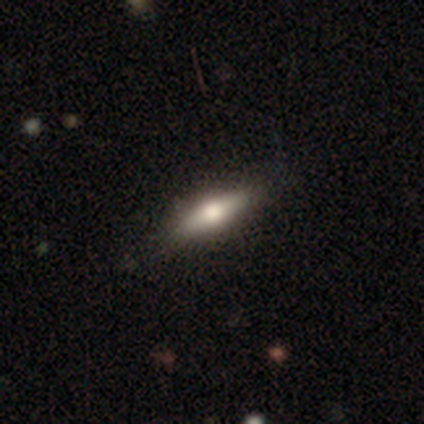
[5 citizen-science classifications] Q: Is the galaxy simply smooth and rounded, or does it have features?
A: featured or disk — 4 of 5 (80%).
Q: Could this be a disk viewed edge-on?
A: yes — 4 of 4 (100%).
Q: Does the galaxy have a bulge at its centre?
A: rounded — 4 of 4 (100%).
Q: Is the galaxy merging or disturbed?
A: none — 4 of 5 (80%).